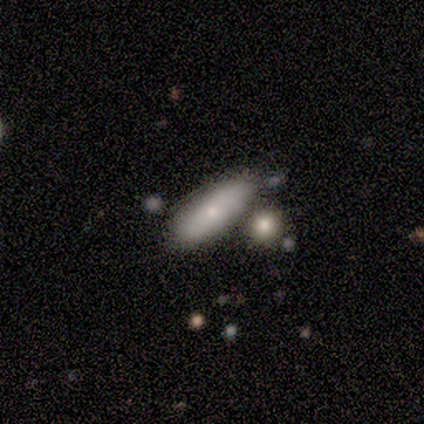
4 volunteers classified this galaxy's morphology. smooth 50% (tied), featured or disk 50% (tied), star or artifact 0%. Down the decision tree: how rounded — in between (50%, tied with cigar-shaped); merging — none (50%).